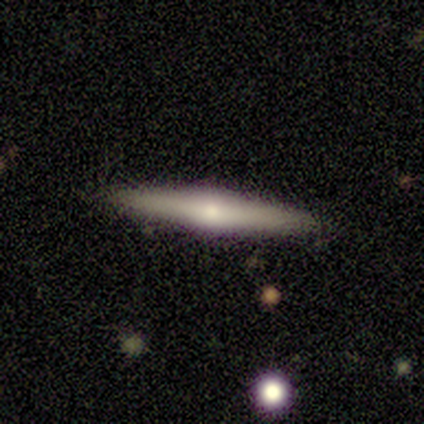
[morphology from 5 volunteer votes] This appears to be a featured or disk galaxy (60%) viewed edge-on (100%) with a rounded central bulge (100%). Merging: none (100%).